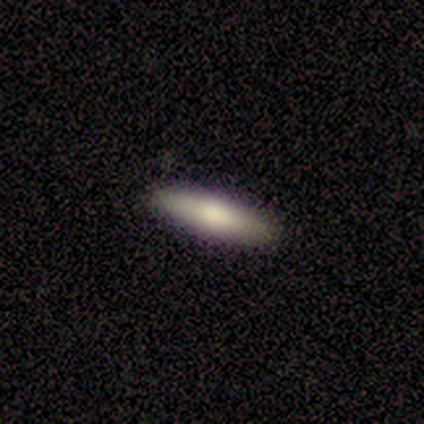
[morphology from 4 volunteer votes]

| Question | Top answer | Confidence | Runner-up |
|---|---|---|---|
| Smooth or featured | smooth | 100% | — |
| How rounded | in between | 50% | tied: cigar-shaped (50%) |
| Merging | none | 75% | minor disturbance (25%) |